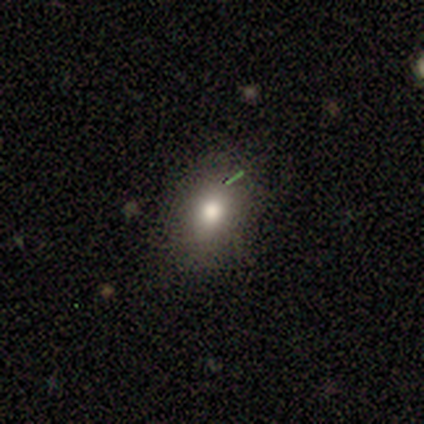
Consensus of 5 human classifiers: This is clearly a smooth galaxy (80%). How rounded: possibly round (50%, tied with in between). Merging: clearly none (100%).